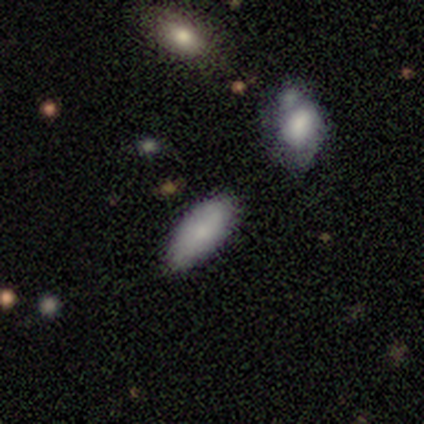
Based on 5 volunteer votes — Q: Smooth or featured?
A: smooth (80%); runner-up: featured or disk (20%)
Q: How rounded?
A: in between (75%); runner-up: cigar-shaped (25%)
Q: Merging?
A: none (80%); runner-up: merger (20%)